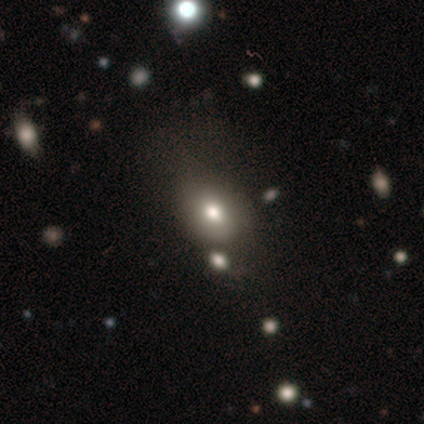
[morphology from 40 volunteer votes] Q: Smooth or featured?
A: smooth (65%); runner-up: star or artifact (20%)
Q: How rounded?
A: in between (73%); runner-up: round (23%)
Q: Merging?
A: none (66%); runner-up: minor disturbance (16%)